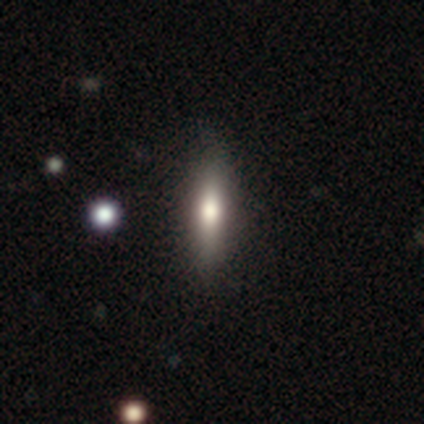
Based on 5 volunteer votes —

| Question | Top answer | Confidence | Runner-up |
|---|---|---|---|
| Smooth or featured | smooth | 60% | featured or disk (40%) |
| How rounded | cigar-shaped | 67% | in between (33%) |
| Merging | none | 100% | — |